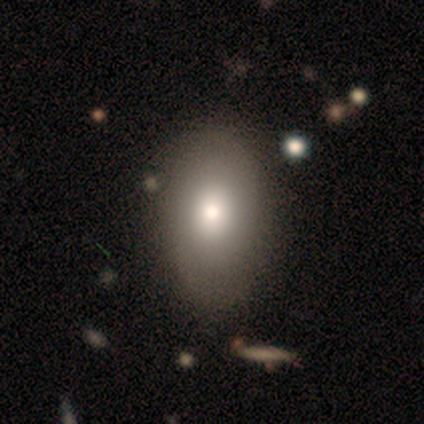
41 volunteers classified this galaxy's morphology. A smooth galaxy with no disk features (66%) that is in between round and cigar-shaped (85%). Merging: none (73%).